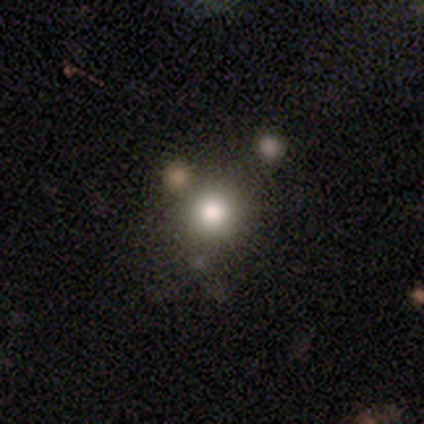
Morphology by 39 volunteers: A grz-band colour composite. It shows a smooth galaxy with no disk features (77%) that is round (100%). Merging: none (72%).